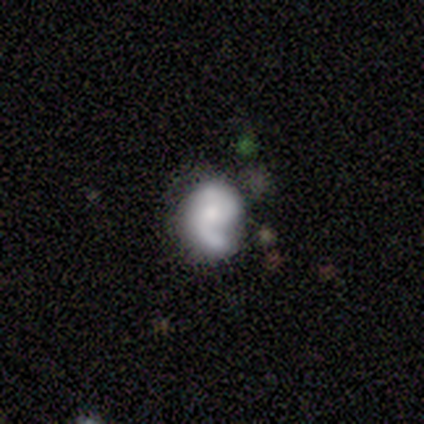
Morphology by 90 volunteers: A featured or disk galaxy (63%) with no bar (77%), 2 (71%) tight (42%) spiral arms (86%) and a small central bulge (45%).

Vote fractions:
- Smooth or featured? featured or disk: 63% / smooth: 26% / star or artifact: 11%
- Edge-on disk? no: 98% / yes: 2%
- Bar? no: 77% / weak: 18% / strong: 5%
- Spiral arms? yes: 86% / no: 14%
- Spiral winding? tight: 42% / medium: 29% / loose: 29%
- Spiral arm count? 2: 71% / 1: 25% / can't tell: 4% / 3: 0% / 4: 0% / more than 4: 0%
- Bulge size? small: 45% / moderate: 29% / none: 16% / dominant: 5% / large: 5%
- Merging? none: 52% / minor disturbance: 25% / major disturbance: 12% / merger: 10%